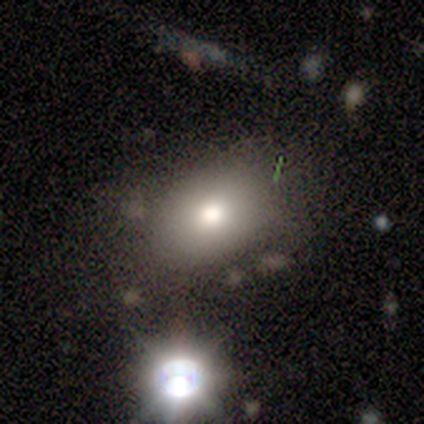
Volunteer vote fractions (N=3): Q: Smooth or featured?
A: smooth (67%); runner-up: star or artifact (33%)
Q: How rounded?
A: in between (100%)
Q: Merging?
A: minor disturbance (100%)